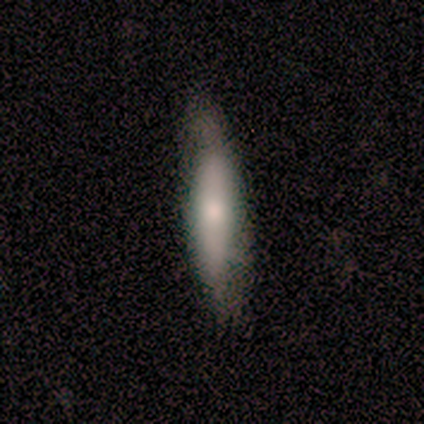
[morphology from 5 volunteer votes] Overall: smooth (80%). How rounded: cigar-shaped (100%). Merging: none (60%; minor disturbance 40%).